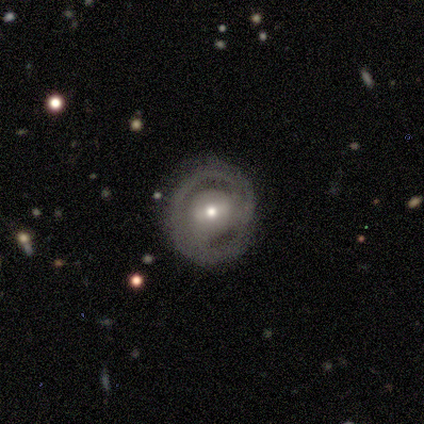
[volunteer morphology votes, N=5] This appears to be a smooth galaxy with no disk features (60%) that is round (100%). Merging: none (100%).